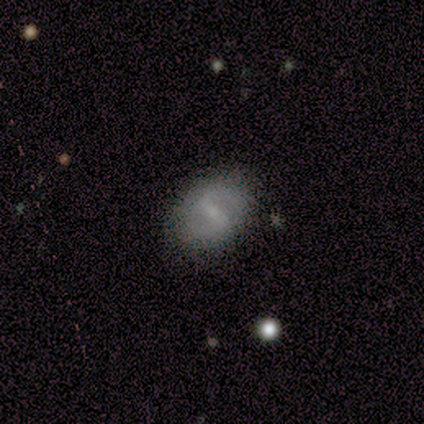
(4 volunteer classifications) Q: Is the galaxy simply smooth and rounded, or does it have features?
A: smooth — 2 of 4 (50%, tied with featured or disk).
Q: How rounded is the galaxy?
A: round — 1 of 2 (50%, tied with in between).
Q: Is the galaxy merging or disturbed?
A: none — 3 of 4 (75%).